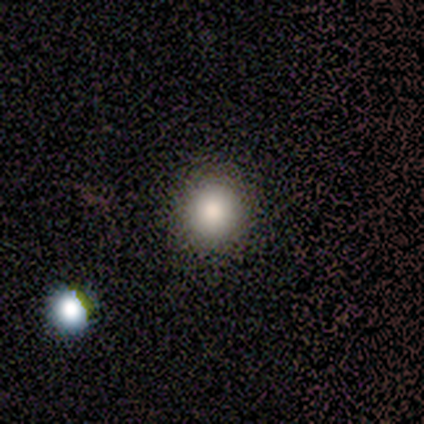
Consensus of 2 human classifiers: Smooth or featured: smooth — 100%
How rounded: round — 100%
Merging: none — 100%